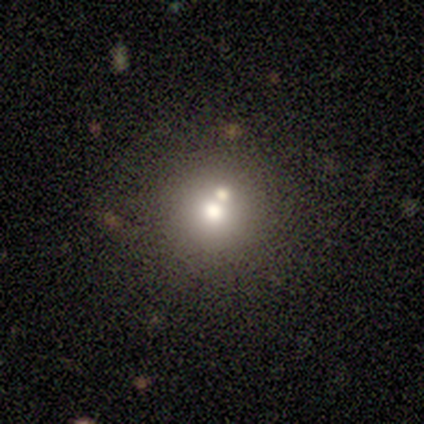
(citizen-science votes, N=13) smooth_or_featured: smooth (p=0.69) [alt: featured or disk p=0.15]
how_rounded: round (p=1.00)
merging: none (p=0.64) [alt: merger p=0.36]